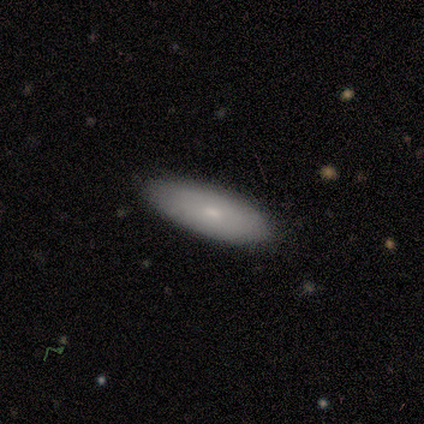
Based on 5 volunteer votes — smooth-or-featured: smooth: 60% | featured or disk: 40% | star or artifact: 0%
  how-rounded: in between: 67% | cigar-shaped: 33% | round: 0%
  merging: none: 80% | major disturbance: 20% | minor disturbance: 0% | merger: 0%